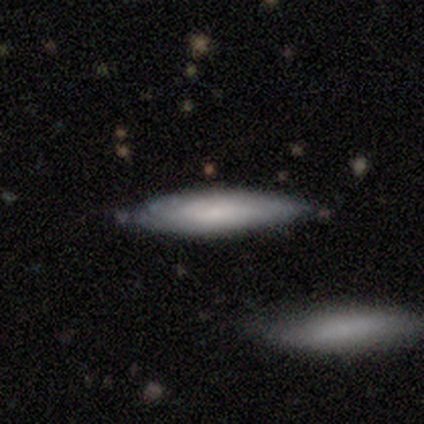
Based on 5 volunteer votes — A smooth galaxy with no disk features (80%) that is cigar-shaped (75%). Merging: none (60%).